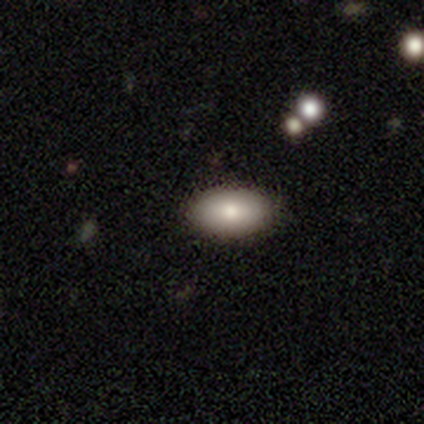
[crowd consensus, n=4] Smooth or featured?
  - smooth: 75% *
  - featured or disk: 25%
  - star or artifact: 0%
How rounded?
  - in between: 67% *
  - cigar-shaped: 33%
  - round: 0%
Merging?
  - none: 100% *
  - minor disturbance: 0%
  - major disturbance: 0%
  - merger: 0%